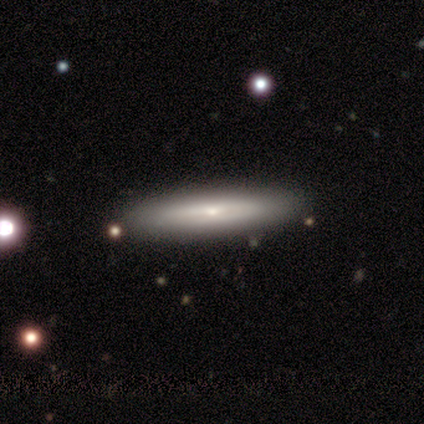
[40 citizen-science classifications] smooth-or-featured: featured or disk: 55% | smooth: 45% | star or artifact: 0%
  disk-edge-on: yes: 82% | no: 18%
    edge-on-bulge: rounded: 72% | none: 28% | boxy: 0%
  merging: none: 70% | minor disturbance: 5% | major disturbance: 5% | merger: 0%